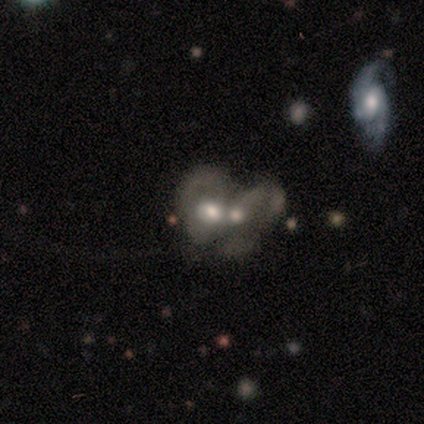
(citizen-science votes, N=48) Smooth or featured?
  - smooth: 44% *
  - featured or disk: 42%
  - star or artifact: 15%
How rounded?
  - in between: 86% *
  - round: 14%
  - cigar-shaped: 0%
Merging?
  - merger: 88% *
  - major disturbance: 7%
  - none: 2%
  - minor disturbance: 2%